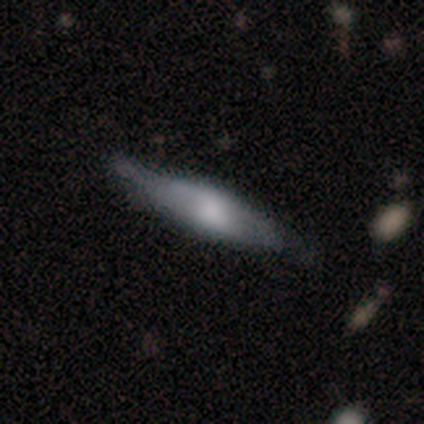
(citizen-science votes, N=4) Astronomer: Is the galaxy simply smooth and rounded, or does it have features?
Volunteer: featured or disk — 75%.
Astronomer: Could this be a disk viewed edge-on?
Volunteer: no — 67%.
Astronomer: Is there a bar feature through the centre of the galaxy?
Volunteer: weak — 100%.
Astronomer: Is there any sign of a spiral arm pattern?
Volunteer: yes — 50%, tied with no at 50%.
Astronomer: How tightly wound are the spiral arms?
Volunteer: tight — 100%.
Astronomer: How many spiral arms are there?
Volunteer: can't tell — 100%.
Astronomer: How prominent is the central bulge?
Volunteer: large — 100%.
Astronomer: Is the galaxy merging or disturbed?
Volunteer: minor disturbance — 67%.